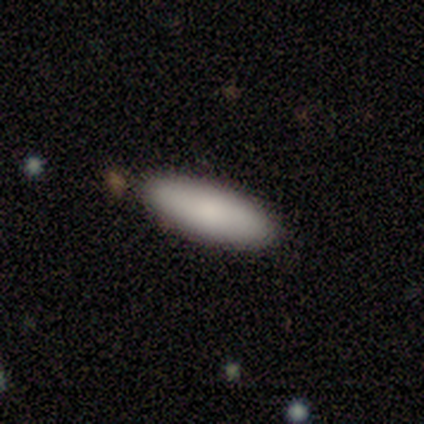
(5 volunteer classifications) smooth-or-featured: smooth: 80% | featured or disk: 20% | star or artifact: 0%
  how-rounded: cigar-shaped: 100% | round: 0% | in between: 0%
  merging: none: 80% | minor disturbance: 20% | major disturbance: 0% | merger: 0%